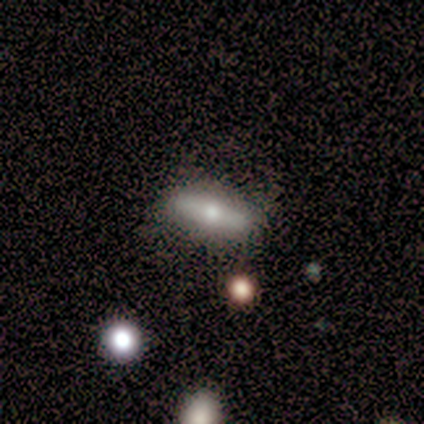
This appears to be a smooth galaxy with no disk features (80%) that is in between round and cigar-shaped (50%, tied with cigar-shaped). Merging: none (60%).